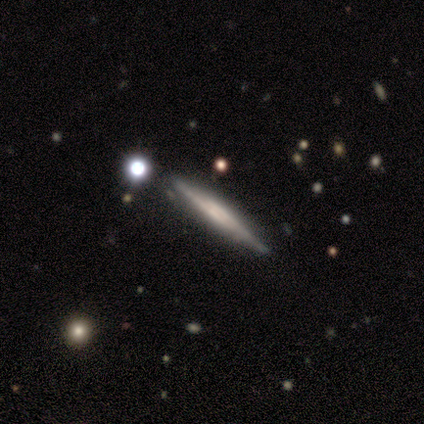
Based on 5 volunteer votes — Volunteers were most divided on "edge-on bulge": boxy: 75%, rounded: 25%, none: 0%. More confident: edge-on disk — yes (100%); smooth or featured — featured or disk (80%); merging — none (80%).